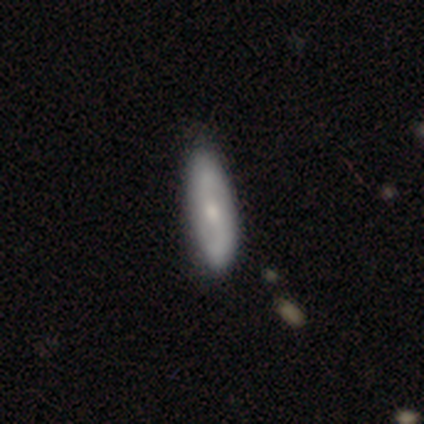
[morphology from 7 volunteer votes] type=smooth (57%); roundness=in between (75%); merging=none (100%).